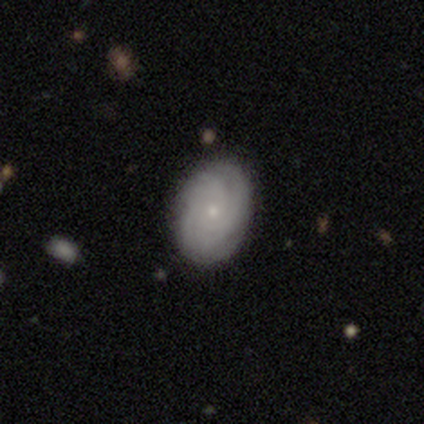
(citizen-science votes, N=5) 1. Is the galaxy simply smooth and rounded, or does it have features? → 80% featured or disk, 20% star or artifact, 0% smooth.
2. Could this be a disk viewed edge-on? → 100% no, 0% yes.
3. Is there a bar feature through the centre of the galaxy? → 100% no, 0% strong, 0% weak.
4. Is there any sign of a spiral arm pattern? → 100% yes, 0% no.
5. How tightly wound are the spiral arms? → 75% tight, 25% loose, 0% medium.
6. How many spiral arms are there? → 25% 2 (tied), 25% 3 (tied), 25% 4 (tied), 25% more than 4 (tied), 0% 1, 0% can't tell.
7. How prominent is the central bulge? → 75% small, 25% moderate, 0% dominant, 0% large, 0% none.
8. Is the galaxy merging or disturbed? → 50% none (tied), 50% minor disturbance (tied), 0% major disturbance, 0% merger.